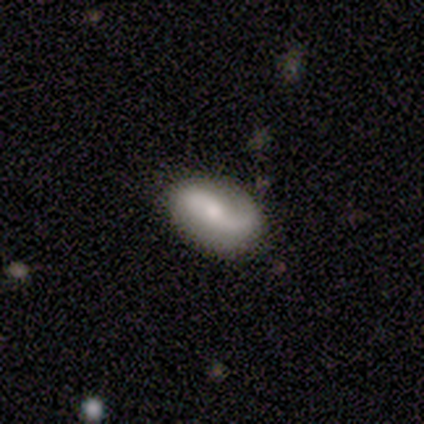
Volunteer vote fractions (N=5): Q: Smooth or featured?
A: smooth (60%); runner-up: featured or disk (40%)
Q: How rounded?
A: in between (100%)
Q: Merging?
A: none (80%); runner-up: major disturbance (20%)